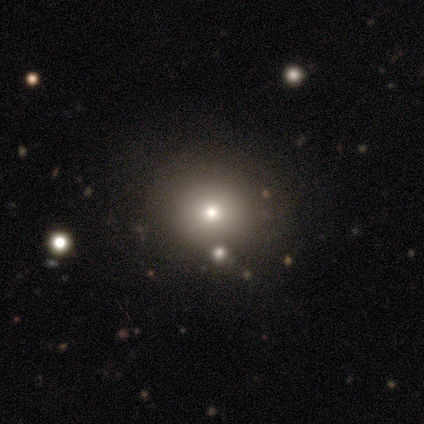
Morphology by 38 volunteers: smooth 82%, star or artifact 16%, featured or disk 3%. Down the decision tree: how rounded — round (87%); merging — none (53%).